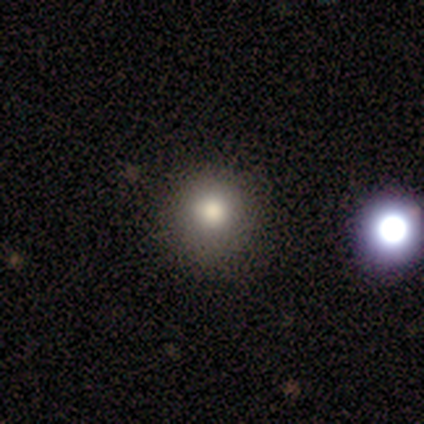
Smooth or featured? 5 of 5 (100%) said smooth. How rounded? 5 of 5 (100%) said round. Merging? 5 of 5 (100%) said none.